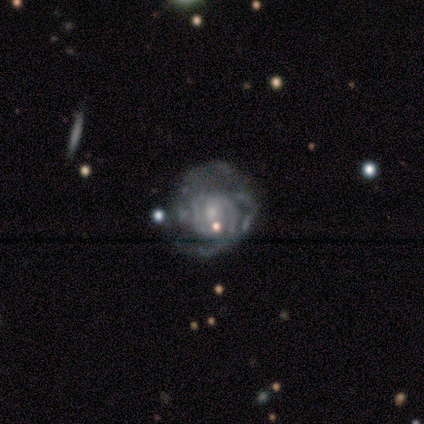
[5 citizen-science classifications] smooth_or_featured: featured or disk (p=0.80) [alt: smooth p=0.20]
disk_edge_on: no (p=1.00)
bar: no (p=0.75) [alt: weak p=0.25]
has_spiral_arms: yes (p=1.00)
spiral_winding: tight (p=0.50) [tied with: medium p=0.50]
spiral_arm_count: 3 (p=0.50) [tied with: can't tell p=0.50]
bulge_size: small (p=0.75) [alt: moderate p=0.25]
merging: none (p=0.60) [alt: minor disturbance p=0.20]